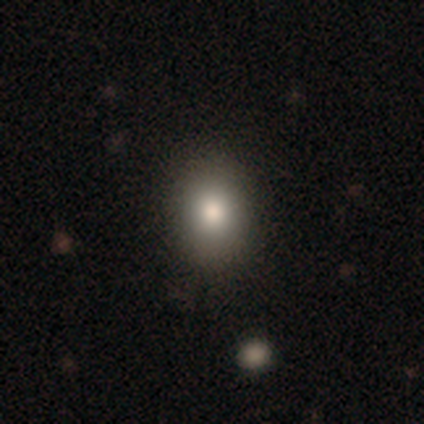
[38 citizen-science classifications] This is likely a smooth galaxy (79%). How rounded: possibly in between (53%). Merging: likely none (68%).